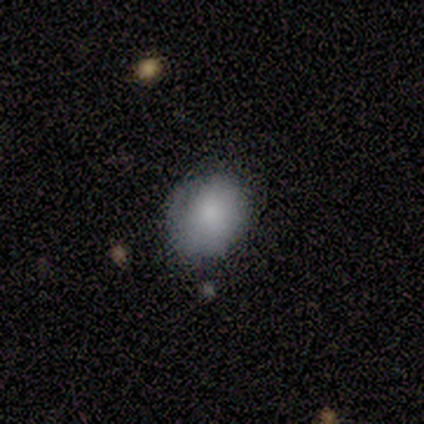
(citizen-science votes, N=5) Smooth or featured? 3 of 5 (60%) said smooth. How rounded? 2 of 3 (67%) said in between. Merging? 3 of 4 (75%) said none.